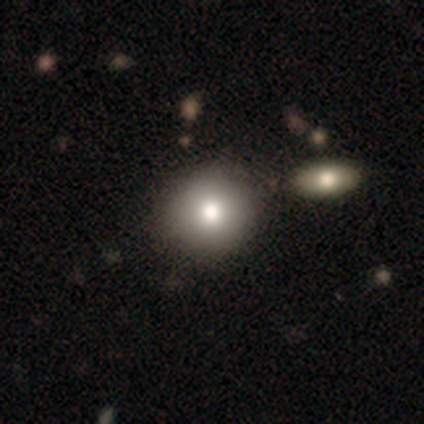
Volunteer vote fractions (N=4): Overall: smooth (50%; featured or disk 25%). How rounded: round (100%). Merging: none (100%).